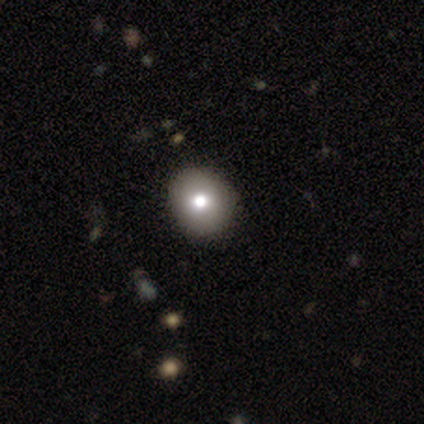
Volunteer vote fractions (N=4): Smooth or featured? smooth (75%)
How rounded? in between (67%)
Merging? none (100%)